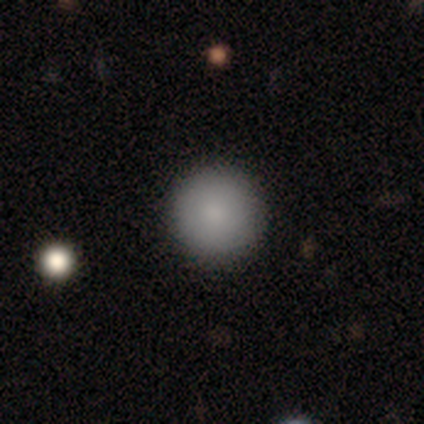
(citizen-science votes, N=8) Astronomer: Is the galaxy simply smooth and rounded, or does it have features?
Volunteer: smooth — 88%.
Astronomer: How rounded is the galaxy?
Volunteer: round — 86%.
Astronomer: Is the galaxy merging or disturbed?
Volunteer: none — 75%.